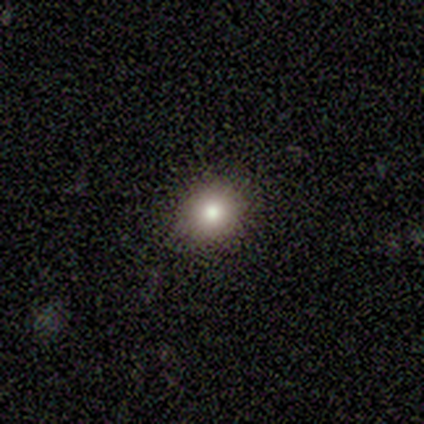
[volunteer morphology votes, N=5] Overall: smooth (60%; star or artifact 40%). How rounded: round (100%). Merging: none (100%).